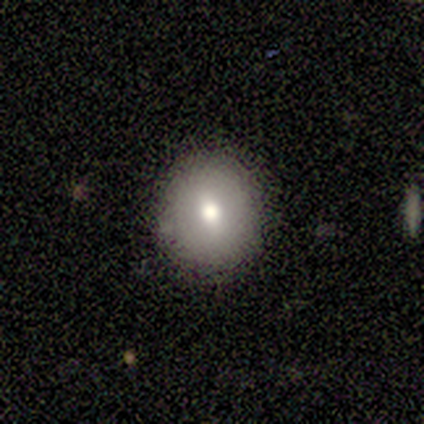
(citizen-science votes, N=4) Smooth or featured? smooth (75%)
How rounded? round (67%)
Merging? none (50%, tied with minor disturbance)